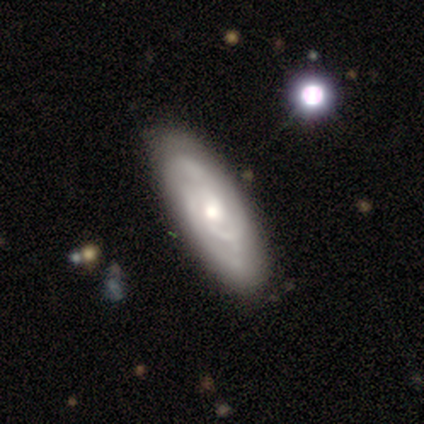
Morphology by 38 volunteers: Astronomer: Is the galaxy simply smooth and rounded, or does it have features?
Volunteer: featured or disk — 92%.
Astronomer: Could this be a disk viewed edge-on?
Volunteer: no — 91%.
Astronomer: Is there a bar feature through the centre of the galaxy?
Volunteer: no — 62%.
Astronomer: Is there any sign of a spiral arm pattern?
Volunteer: yes — 94%.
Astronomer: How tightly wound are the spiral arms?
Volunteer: tight — 67%.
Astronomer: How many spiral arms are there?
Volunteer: can't tell — 53%.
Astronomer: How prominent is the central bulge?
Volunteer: moderate — 66%.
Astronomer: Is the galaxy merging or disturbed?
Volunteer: none — 55%.